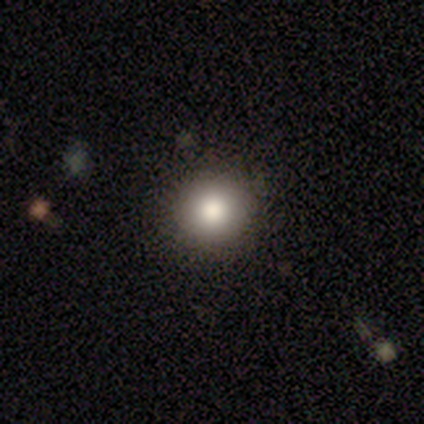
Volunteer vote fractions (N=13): smooth 85%, featured or disk 15%, star or artifact 0%. Down the decision tree: how rounded — round (100%); merging — none (85%).